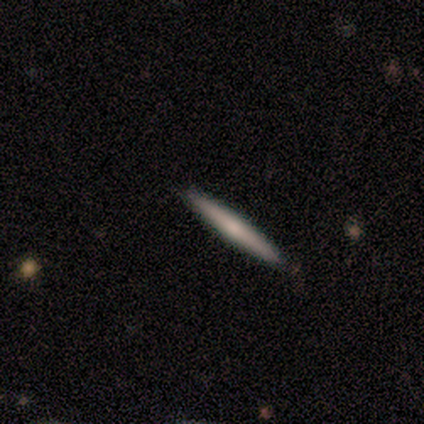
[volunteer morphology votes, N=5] Smooth or featured? smooth (80%)
How rounded? cigar-shaped (100%)
Merging? none (40%, tied with minor disturbance)